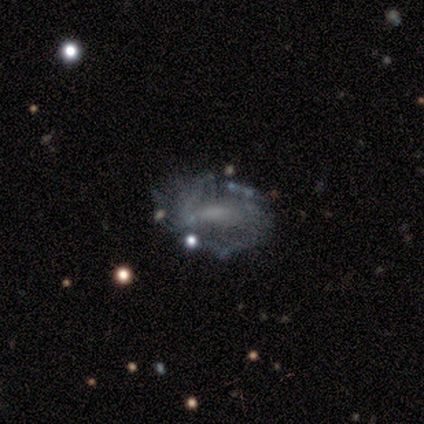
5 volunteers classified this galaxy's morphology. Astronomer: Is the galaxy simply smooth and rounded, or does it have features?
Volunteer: featured or disk — 100%.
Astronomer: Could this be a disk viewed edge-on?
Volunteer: no — 100%.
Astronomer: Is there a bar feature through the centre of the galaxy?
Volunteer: strong — 40%, tied with no at 40%.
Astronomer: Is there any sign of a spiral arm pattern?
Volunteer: no — 60% (runner-up: yes, 40%).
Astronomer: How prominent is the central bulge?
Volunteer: none — 80%.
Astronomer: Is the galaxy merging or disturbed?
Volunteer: none — 60% (runner-up: minor disturbance, 40%).